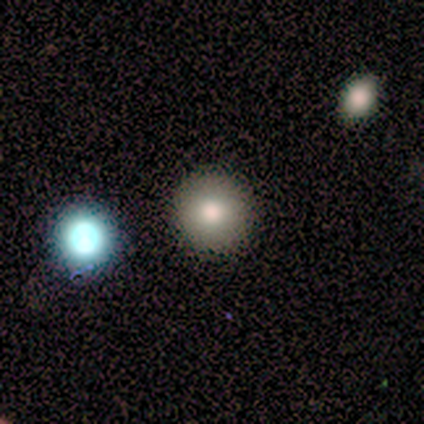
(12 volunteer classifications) smooth 83%, featured or disk 8%, star or artifact 8%. Down the decision tree: how rounded — round (90%); merging — none (100%).